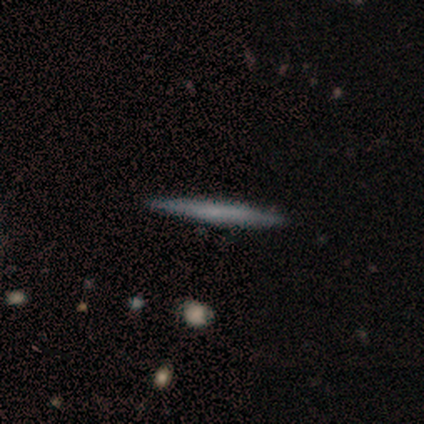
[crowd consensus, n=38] Smooth or featured: smooth — 63% (featured or disk — 34%)
How rounded: cigar-shaped — 100%
Merging: none — 97% (minor disturbance — 3%)